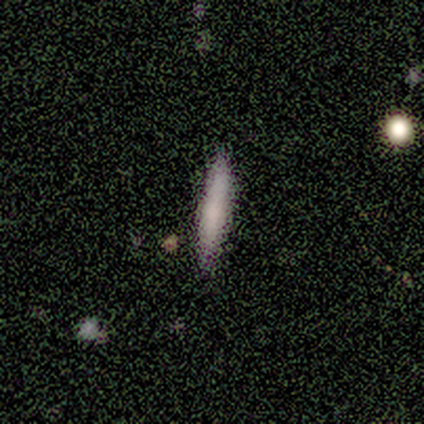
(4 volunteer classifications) A smooth galaxy with no disk features (50%, tied with featured or disk) that is cigar-shaped (100%).

Vote fractions:
- Smooth or featured? smooth: 50% (tied) / featured or disk: 50% (tied) / star or artifact: 0%
- How rounded? cigar-shaped: 100% / round: 0% / in between: 0%
- Merging? none: 100% / minor disturbance: 0% / major disturbance: 0% / merger: 0%